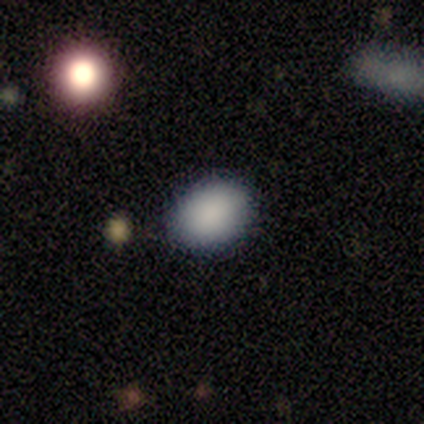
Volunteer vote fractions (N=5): This appears to be a smooth galaxy with no disk features (100%) that is in between round and cigar-shaped (60%). Merging: none (60%).